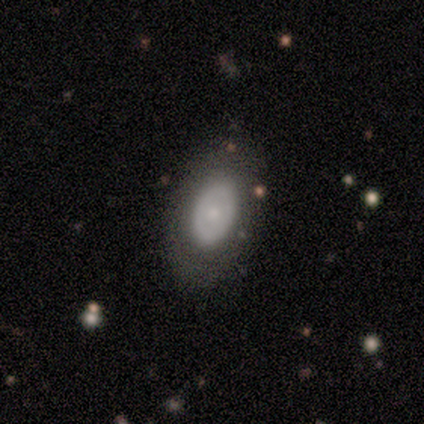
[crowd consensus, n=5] smooth_or_featured: smooth (p=0.80) [alt: featured or disk p=0.20]
how_rounded: in between (p=1.00)
merging: none (p=1.00)